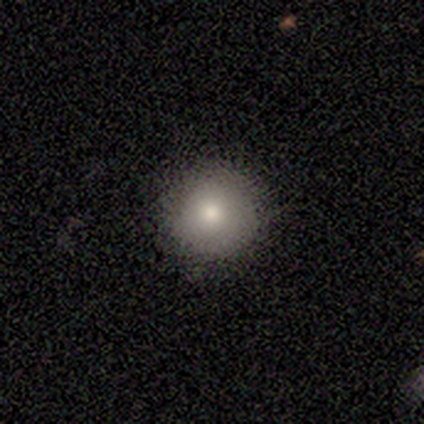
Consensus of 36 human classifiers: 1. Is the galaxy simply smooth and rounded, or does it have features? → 83% smooth, 14% featured or disk, 3% star or artifact.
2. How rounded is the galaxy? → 93% round, 7% in between, 0% cigar-shaped.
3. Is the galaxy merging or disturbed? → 94% none, 6% minor disturbance, 0% major disturbance, 0% merger.